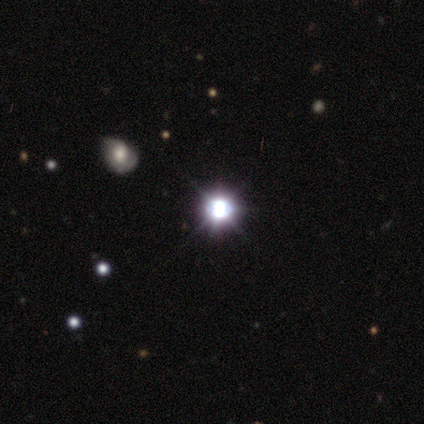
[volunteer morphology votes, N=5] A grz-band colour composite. It shows a star or artifact, not a galaxy (100%).